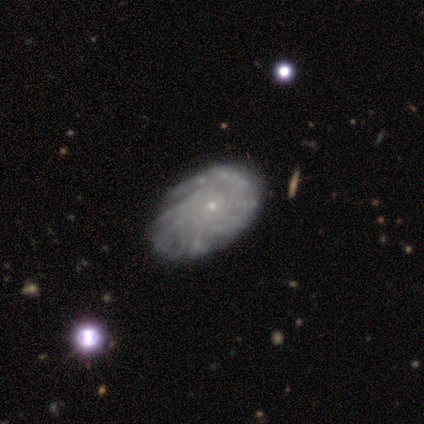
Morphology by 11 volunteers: This is clearly a featured or disk galaxy (91%). It is clearly not viewed edge-on (90%). Bar: clearly no (89%). Spiral arm pattern: clearly yes (100%). Spiral arm count: likely can't tell (67%). Spiral winding: clearly tight (89%). Central bulge: clearly small (100%). Merging: likely none (60%).